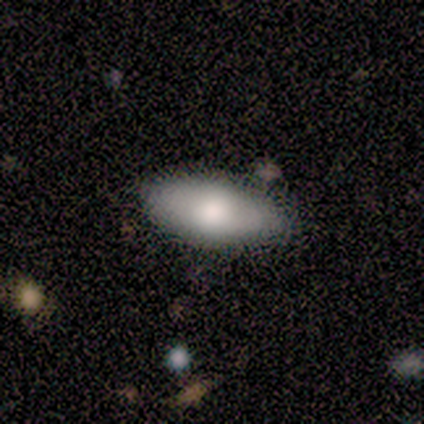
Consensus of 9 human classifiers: Volunteers were most divided on "smooth or featured": smooth: 56%, featured or disk: 33%, star or artifact: 11%. More confident: how rounded — in between (100%); merging — none (88%).